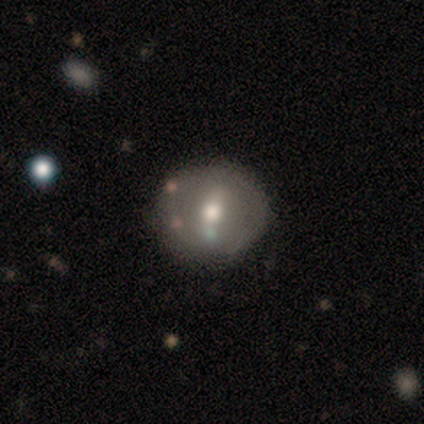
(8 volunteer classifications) featured or disk 75%, smooth 25%, star or artifact 0%. Down the decision tree: edge-on disk — no (100%); bar — no (50%); spiral arms — no (100%); bulge size — moderate (83%); merging — none (50%).